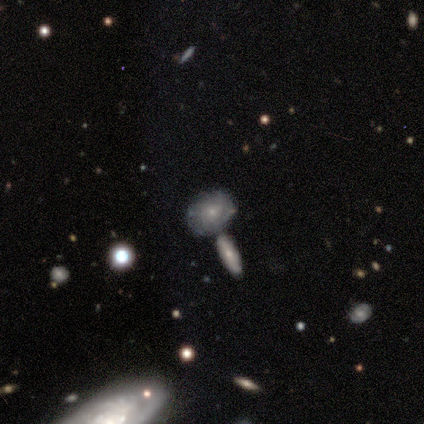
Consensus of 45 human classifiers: Smooth or featured?
  - featured or disk: 69% *
  - smooth: 27%
  - star or artifact: 4%
Edge-on disk?
  - no: 87% *
  - yes: 13%
Bar?
  - no: 100% *
  - strong: 0%
  - weak: 0%
Spiral arms?
  - yes: 59% *
  - no: 41%
Spiral winding?
  - tight: 69% *
  - medium: 31%
  - loose: 0%
Spiral arm count?
  - can't tell: 94% *
  - more than 4: 6%
  - 1: 0%
  - 2: 0%
  - 3: 0%
  - 4: 0%
Bulge size?
  - small: 70% *
  - moderate: 26%
  - none: 4%
  - dominant: 0%
  - large: 0%
Merging?
  - none: 51% *
  - merger: 30%
  - minor disturbance: 16%
  - major disturbance: 2%